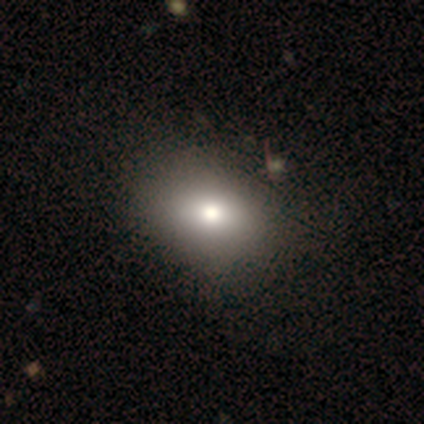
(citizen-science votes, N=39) A smooth galaxy with no disk features (74%) that is in between round and cigar-shaped (66%). Merging: none (55%).